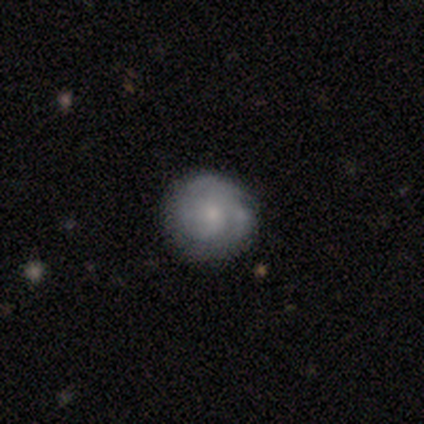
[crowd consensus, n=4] featured or disk 75%, smooth 25%, star or artifact 0%. Down the decision tree: edge-on disk — no (100%); bar — weak (67%); spiral arms — no (67%); bulge size — moderate (33%, tied with small and none); merging — none (50%).